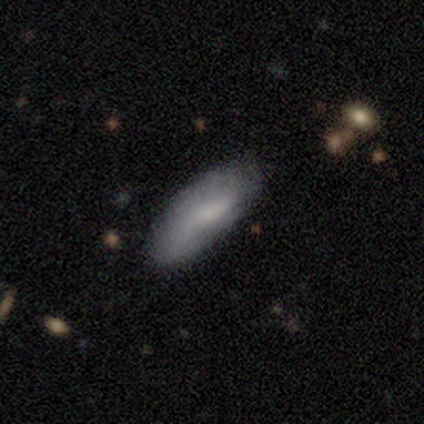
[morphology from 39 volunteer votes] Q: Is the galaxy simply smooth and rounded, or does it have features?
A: smooth — 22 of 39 (56%).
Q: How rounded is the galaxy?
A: in between — 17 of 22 (77%).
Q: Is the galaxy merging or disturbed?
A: none — 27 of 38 (71%).